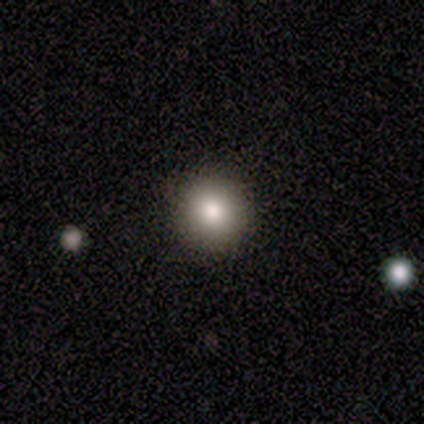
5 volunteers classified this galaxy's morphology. This is likely a smooth galaxy (60%). How rounded: clearly round (100%). Merging: clearly none (100%).